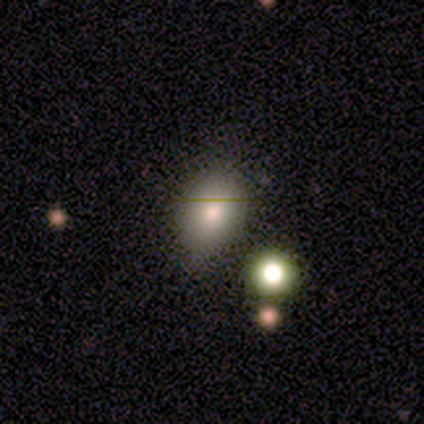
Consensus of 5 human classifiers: Volunteers were most divided on "smooth or featured": smooth: 60%, star or artifact: 40%, featured or disk: 0%. More confident: how rounded — in between (100%); merging — none (67%).